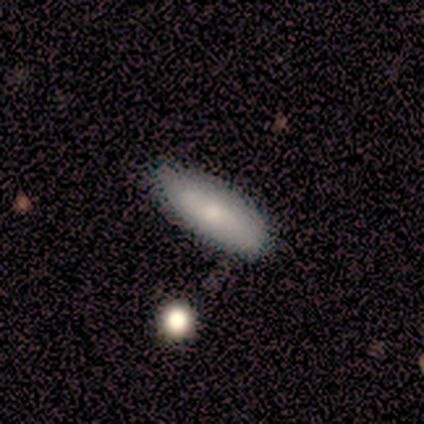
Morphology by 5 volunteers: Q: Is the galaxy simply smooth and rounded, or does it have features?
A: smooth — 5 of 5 (100%).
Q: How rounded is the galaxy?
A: in between — 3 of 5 (60%).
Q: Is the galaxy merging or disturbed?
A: minor disturbance — 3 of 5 (60%).